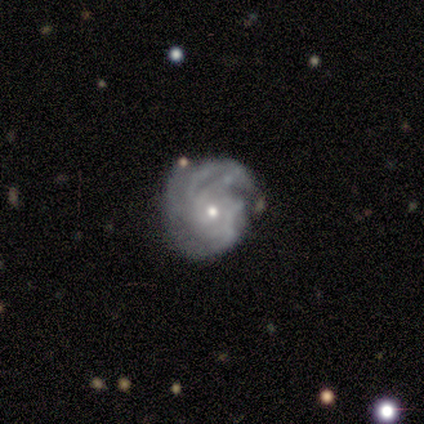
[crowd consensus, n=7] smooth_or_featured: featured or disk (p=1.00)
disk_edge_on: no (p=1.00)
bar: no (p=0.43) [alt: strong p=0.29]
has_spiral_arms: yes (p=0.86) [alt: no p=0.14]
spiral_winding: medium (p=0.50) [alt: tight p=0.33]
spiral_arm_count: 4 (p=0.50) [alt: 3 p=0.17]
bulge_size: small (p=0.71) [alt: moderate p=0.29]
merging: none (p=0.43) [tied with: minor disturbance p=0.43]